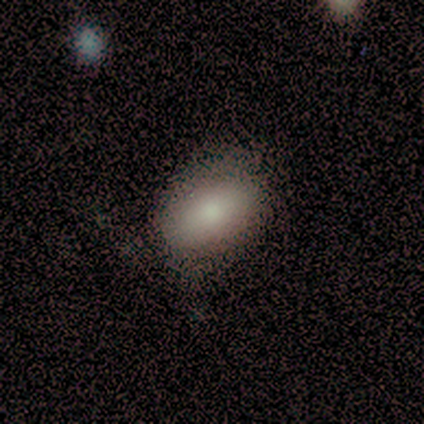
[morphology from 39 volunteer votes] Smooth or featured?
  - smooth: 74% *
  - featured or disk: 15%
  - star or artifact: 10%
How rounded?
  - in between: 86% *
  - round: 10%
  - cigar-shaped: 3%
Merging?
  - none: 74% *
  - minor disturbance: 23%
  - major disturbance: 3%
  - merger: 0%